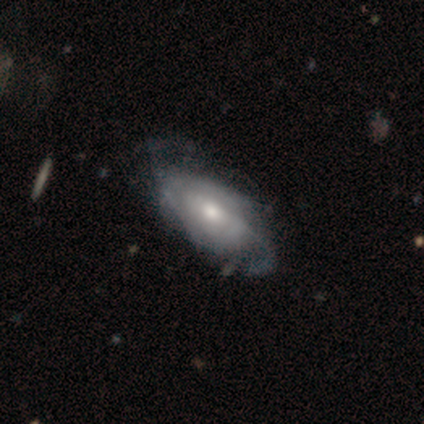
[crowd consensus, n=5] Overall: featured or disk (80%). Edge-on disk: no (100%). Bar: weak (50%, tied with no). Spiral arms: yes (100%). Spiral arm count: can't tell (75%). Spiral winding: loose (75%). Bulge size: moderate (50%; large 25%). Merging: none (60%; minor disturbance 20%).